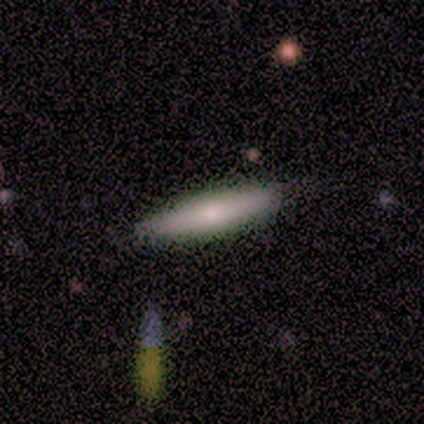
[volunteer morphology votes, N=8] Smooth or featured?
  - smooth: 100% *
  - featured or disk: 0%
  - star or artifact: 0%
How rounded?
  - cigar-shaped: 88% *
  - in between: 12%
  - round: 0%
Merging?
  - none: 100% *
  - minor disturbance: 0%
  - major disturbance: 0%
  - merger: 0%